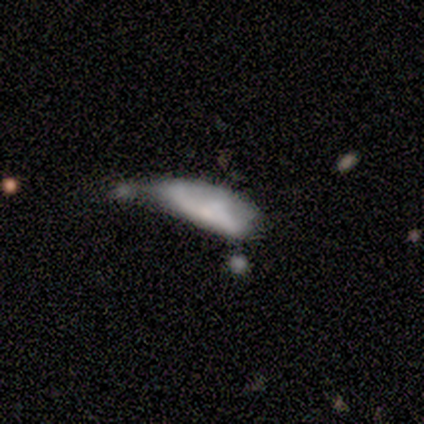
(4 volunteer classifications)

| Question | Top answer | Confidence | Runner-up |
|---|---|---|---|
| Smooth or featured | smooth | 75% | featured or disk (25%) |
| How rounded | cigar-shaped | 67% | in between (33%) |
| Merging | minor disturbance | 50% | tied: merger (50%) |